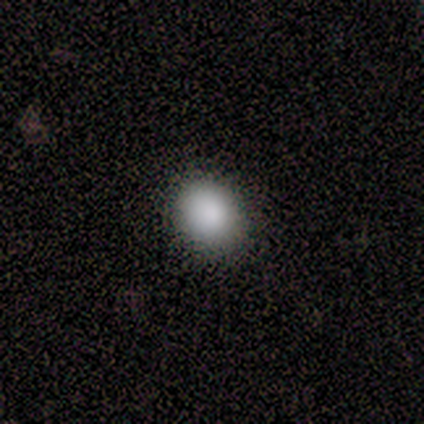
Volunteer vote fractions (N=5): Volunteers were most divided on "how rounded": round: 75%, in between: 25%, cigar-shaped: 0%. More confident: merging — none (100%); smooth or featured — smooth (80%).